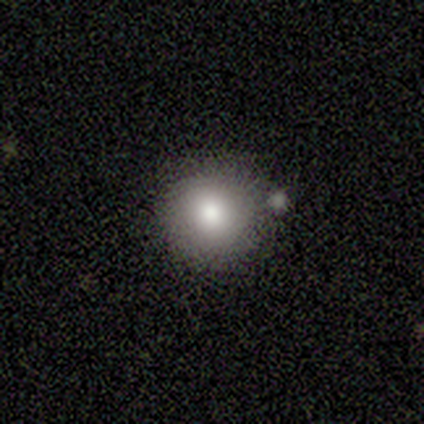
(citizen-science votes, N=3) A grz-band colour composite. It shows a smooth galaxy with no disk features (67%) that is round (100%). Merging: none (67%).